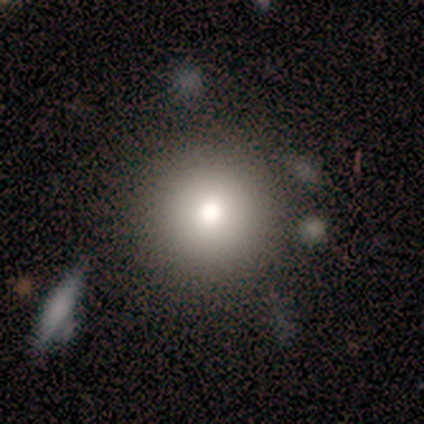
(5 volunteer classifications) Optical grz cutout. It shows a smooth galaxy with no disk features (80%) that is round (100%). Merging: none (100%).